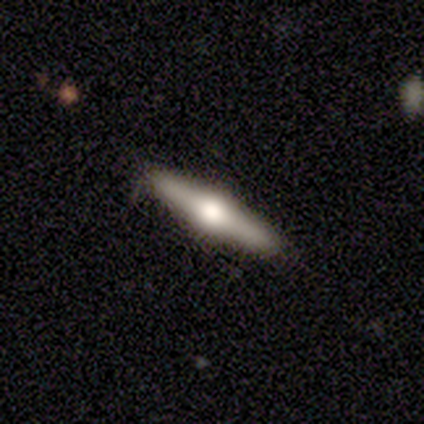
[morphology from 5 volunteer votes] A smooth galaxy with no disk features (40%, tied with featured or disk) that is cigar-shaped (100%). Merging: none (100%).